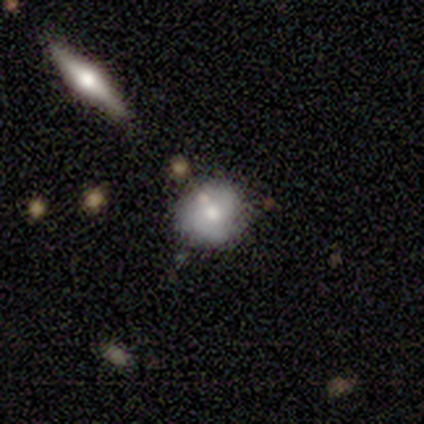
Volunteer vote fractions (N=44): A smooth galaxy with no disk features (66%) that is round (86%). Merging: none (63%).